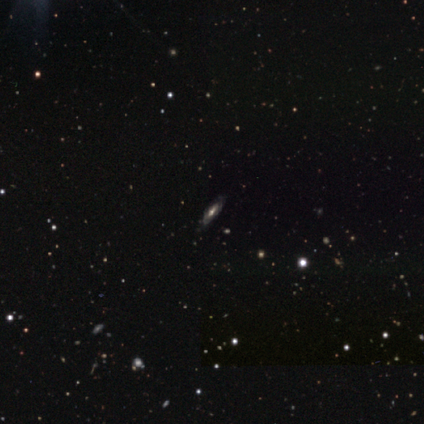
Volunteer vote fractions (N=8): Volunteers were most divided on "edge-on disk" (2-way tie): yes: 50%, no: 50%. More confident: edge-on bulge — rounded (100%); merging — none (100%); smooth or featured — featured or disk (75%).